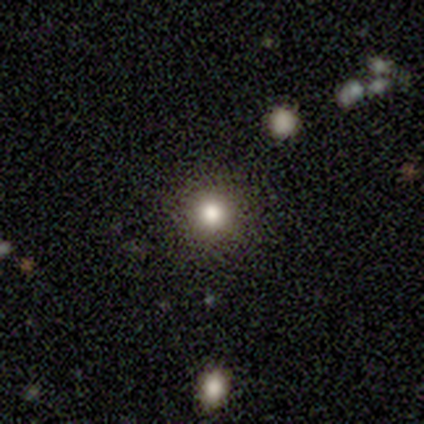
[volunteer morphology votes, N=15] smooth-or-featured: smooth: 67% | star or artifact: 20% | featured or disk: 13%
  how-rounded: round: 100% | in between: 0% | cigar-shaped: 0%
  merging: none: 92% | minor disturbance: 8% | major disturbance: 0% | merger: 0%